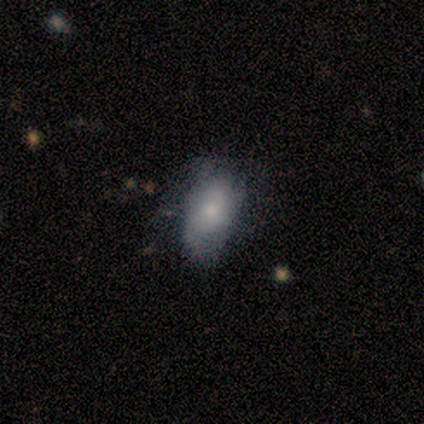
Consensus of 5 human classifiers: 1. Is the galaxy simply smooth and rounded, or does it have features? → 60% smooth, 40% featured or disk, 0% star or artifact.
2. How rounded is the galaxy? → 100% in between, 0% round, 0% cigar-shaped.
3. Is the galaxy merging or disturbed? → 40% none (tied), 40% major disturbance (tied), 20% minor disturbance, 0% merger.